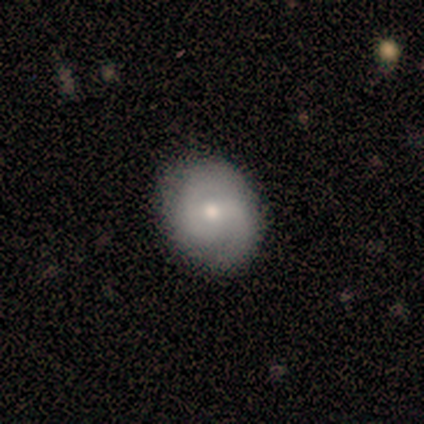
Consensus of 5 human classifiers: Smooth or featured? featured or disk (80%)
Edge-on disk? no (75%)
Bar? no (67%)
Spiral arms? yes (100%)
Spiral winding? tight (67%)
Spiral arm count? 2 (67%)
Bulge size? large (33%, tied with moderate and small)
Merging? none (80%)